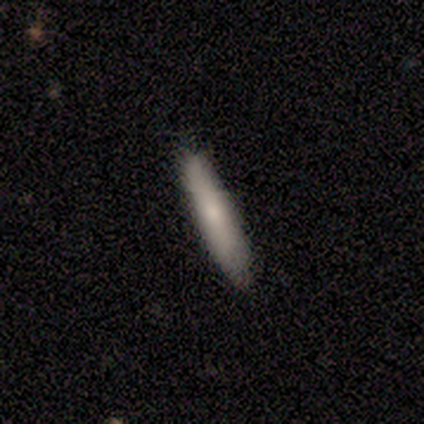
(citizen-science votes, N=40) smooth 75%, featured or disk 22%, star or artifact 2%. Down the decision tree: how rounded — cigar-shaped (93%); merging — none (79%).